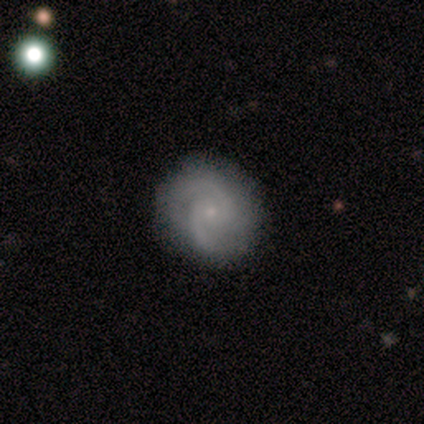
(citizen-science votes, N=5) Smooth or featured? featured or disk (80%)
Edge-on disk? no (100%)
Bar? no (75%)
Spiral arms? yes (100%)
Spiral winding? medium (50%)
Spiral arm count? 2 (75%)
Bulge size? small (100%)
Merging? none (100%)